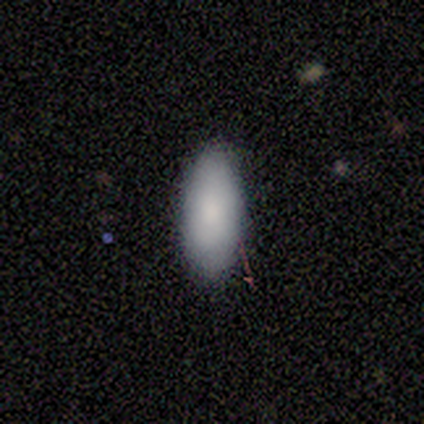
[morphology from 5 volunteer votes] Consensus on every question: smooth or featured — smooth (100%); how rounded — in between (100%); merging — none (100%).